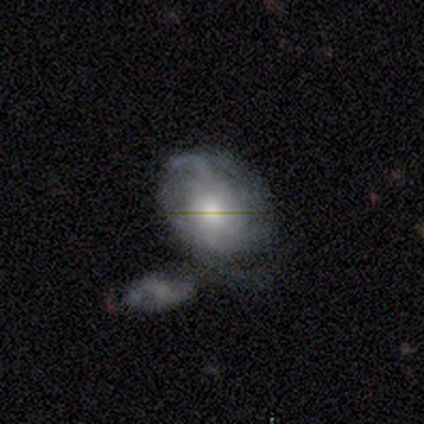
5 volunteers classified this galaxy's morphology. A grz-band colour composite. It shows a featured or disk galaxy (80%) with no bar (67%), 2 (100%) medium (50%, tied with loose) spiral arms (67%) and a dominant central bulge (33%, tied with large and small). Merging: merger (60%).